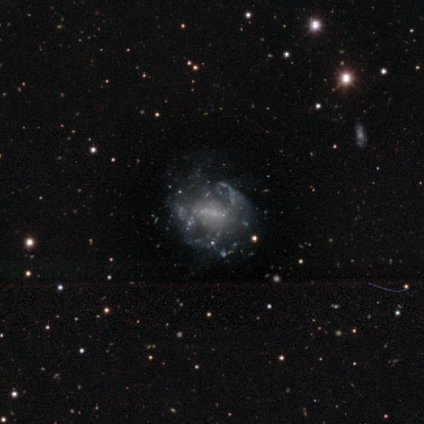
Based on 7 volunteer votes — smooth-or-featured: featured or disk: 86% | smooth: 14% | star or artifact: 0%
  disk-edge-on: no: 100% | yes: 0%
    bar: weak: 50% | no: 33% | strong: 17%
    has-spiral-arms: no: 67% | yes: 33%
    bulge-size: none: 67% | moderate: 33% | dominant: 0% | large: 0% | small: 0%
  merging: major disturbance: 57% | minor disturbance: 29% | none: 14% | merger: 0%